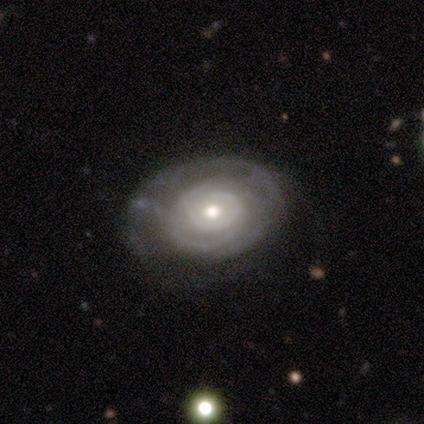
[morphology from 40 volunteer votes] Smooth or featured: featured or disk — 72% (smooth — 15%)
Edge-on disk: no — 97% (yes — 3%)
Bar: no — 89% (weak — 7%)
Spiral arms: yes — 89% (no — 11%)
Spiral winding: tight — 84% (medium — 8%)
Spiral arm count: can't tell — 44% (1 — 20%)
Bulge size: moderate — 64% (small — 21%)
Merging: none — 54% (minor disturbance — 26%)